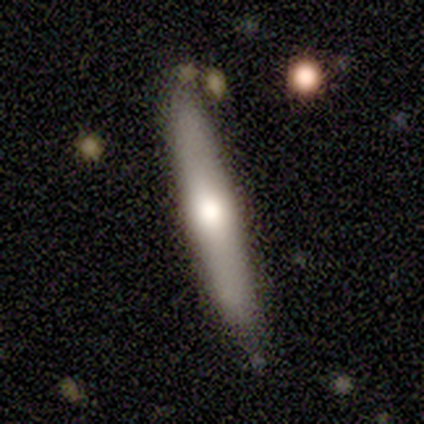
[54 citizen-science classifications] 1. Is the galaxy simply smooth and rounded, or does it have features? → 46% smooth (tied), 46% featured or disk (tied), 7% star or artifact.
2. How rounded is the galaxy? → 84% cigar-shaped, 16% in between, 0% round.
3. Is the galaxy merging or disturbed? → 74% none, 14% minor disturbance, 12% merger, 0% major disturbance.